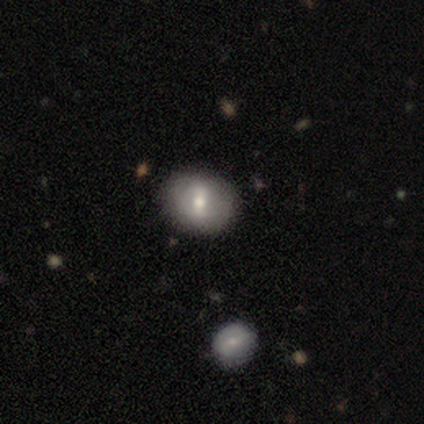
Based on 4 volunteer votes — Overall: smooth (50%; featured or disk 25%). How rounded: round (50%, tied with in between). Merging: none (100%).